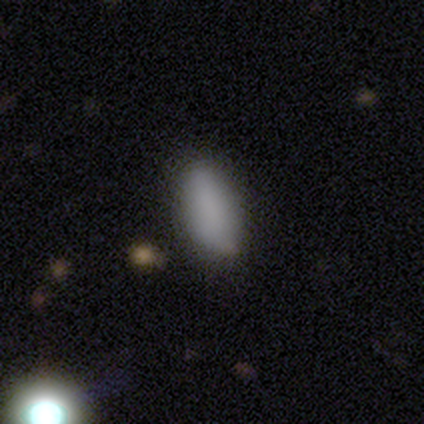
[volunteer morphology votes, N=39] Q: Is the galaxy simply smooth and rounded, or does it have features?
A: smooth — 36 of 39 (92%).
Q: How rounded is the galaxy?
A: in between — 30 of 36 (83%).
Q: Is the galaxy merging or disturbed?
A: none — 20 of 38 (53%).